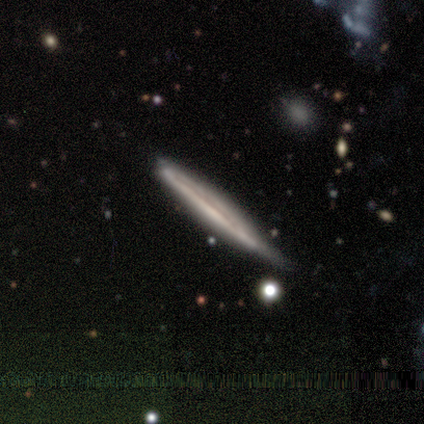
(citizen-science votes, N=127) smooth_or_featured: featured or disk (p=0.70) [alt: smooth p=0.25]
disk_edge_on: yes (p=1.00)
edge_on_bulge: none (p=0.79) [alt: rounded p=0.16]
merging: none (p=0.51) [alt: minor disturbance p=0.40]